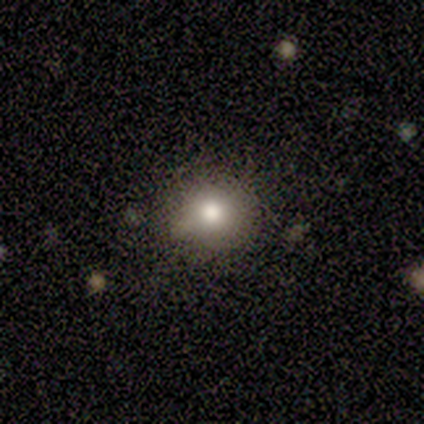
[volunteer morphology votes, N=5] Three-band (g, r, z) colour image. It shows a smooth galaxy with no disk features (100%) that is round (80%). Merging: none (80%).